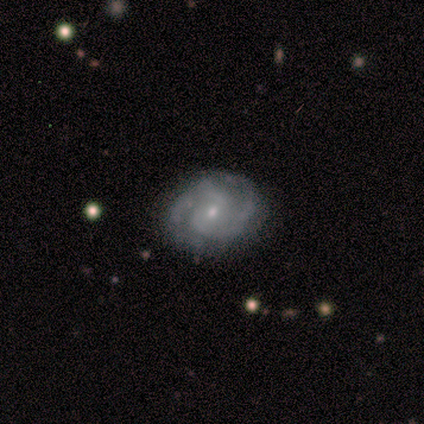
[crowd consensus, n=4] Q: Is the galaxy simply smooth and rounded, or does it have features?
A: featured or disk — 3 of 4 (75%).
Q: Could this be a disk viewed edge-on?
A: no — 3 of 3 (100%).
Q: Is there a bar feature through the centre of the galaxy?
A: no — 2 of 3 (67%).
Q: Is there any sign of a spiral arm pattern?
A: yes — 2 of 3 (67%).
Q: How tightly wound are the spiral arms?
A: tight — 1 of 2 (50%, tied with loose).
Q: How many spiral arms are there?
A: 2 — 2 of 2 (100%).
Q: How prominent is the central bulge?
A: small — 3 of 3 (100%).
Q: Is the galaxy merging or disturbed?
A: none — 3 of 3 (100%).